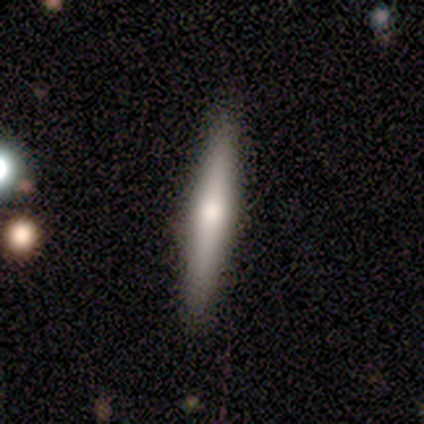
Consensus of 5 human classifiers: A smooth galaxy with no disk features (40%, tied with featured or disk) that is cigar-shaped (100%).

Vote fractions:
- Smooth or featured? smooth: 40% (tied) / featured or disk: 40% (tied) / star or artifact: 20%
- How rounded? cigar-shaped: 100% / round: 0% / in between: 0%
- Merging? none: 100% / minor disturbance: 0% / major disturbance: 0% / merger: 0%